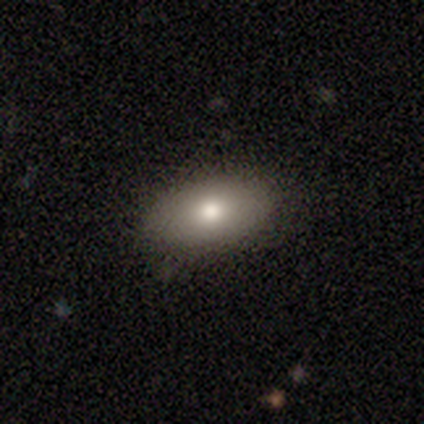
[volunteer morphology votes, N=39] Overall: smooth (85%). How rounded: in between (94%). Merging: none (82%).